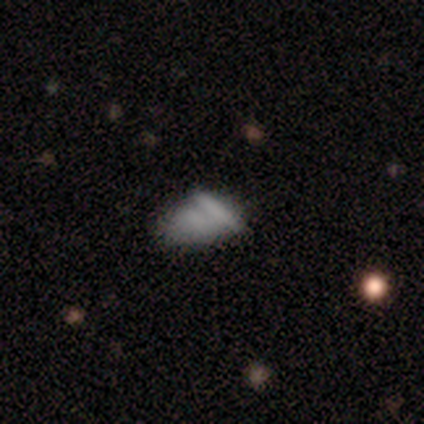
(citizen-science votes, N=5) Morphology: type=smooth (80%); roundness=in between (100%); merging=none (60%).